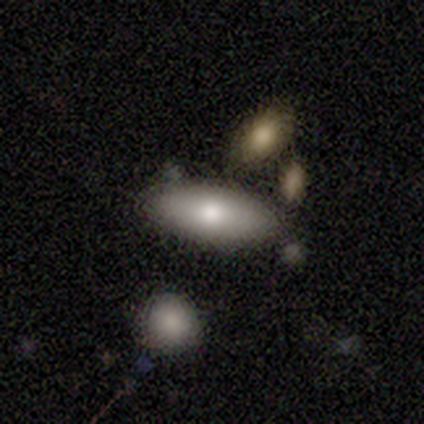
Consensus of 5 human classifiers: Q: Smooth or featured?
A: smooth (80%); runner-up: featured or disk (20%)
Q: How rounded?
A: in between (50%); tied with: cigar-shaped (50%)
Q: Merging?
A: none (100%)